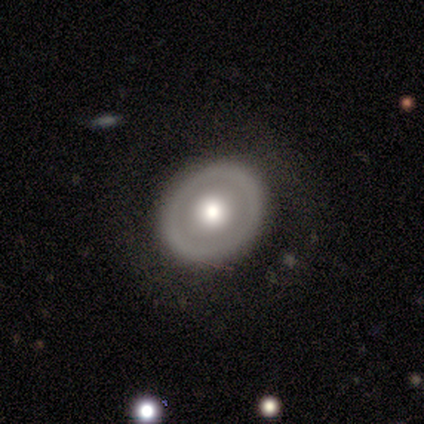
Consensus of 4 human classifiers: Smooth or featured: smooth — 50% (tied with featured or disk — 50%)
How rounded: round — 50% (tied with in between — 50%)
Merging: none — 50% (tied with major disturbance — 50%)